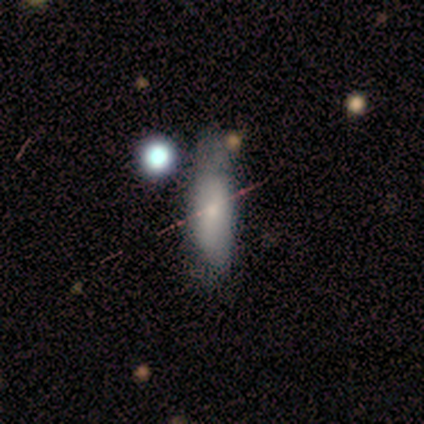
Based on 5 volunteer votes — Overall: smooth (80%). How rounded: cigar-shaped (75%). Merging: none (60%; minor disturbance 40%).